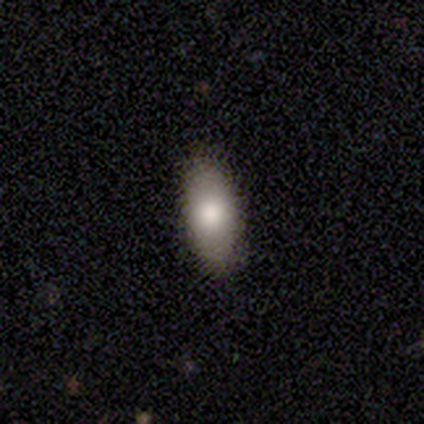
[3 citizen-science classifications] Smooth or featured?
  - smooth: 67% *
  - star or artifact: 33%
  - featured or disk: 0%
How rounded?
  - in between: 100% *
  - round: 0%
  - cigar-shaped: 0%
Merging?
  - none: 100% *
  - minor disturbance: 0%
  - major disturbance: 0%
  - merger: 0%